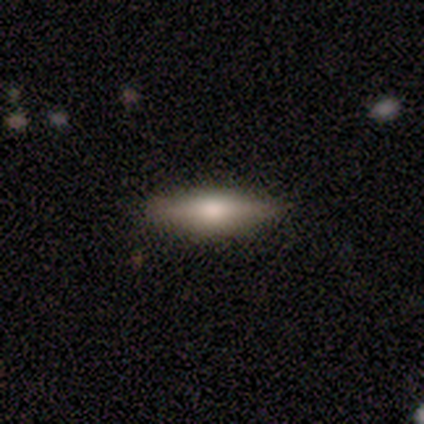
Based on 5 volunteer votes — Morphology: type=smooth (40%, tied with star or artifact); roundness=cigar-shaped (100%); merging=none (100%).